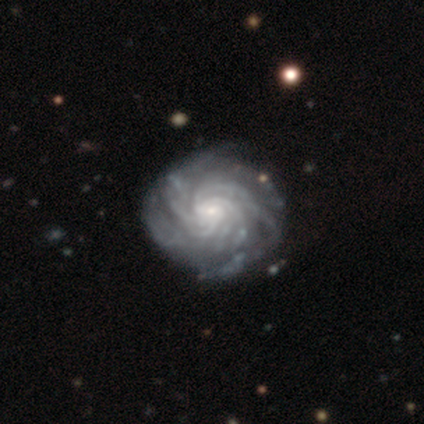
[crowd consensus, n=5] Smooth or featured: featured or disk — 100%
Edge-on disk: no — 100%
Bar: no — 60% (strong — 20%)
Spiral arms: yes — 100%
Spiral winding: tight — 60% (medium — 40%)
Spiral arm count: more than 4 — 60% (can't tell — 40%)
Bulge size: small — 80% (large — 20%)
Merging: none — 80% (minor disturbance — 20%)